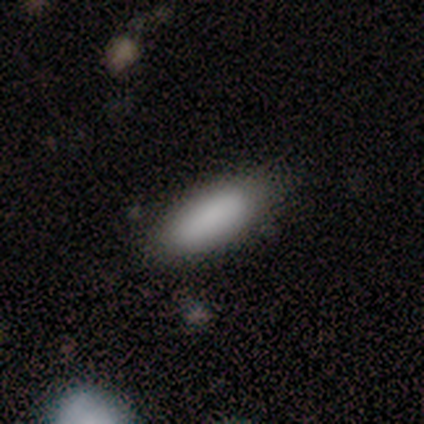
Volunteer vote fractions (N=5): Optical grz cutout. It shows a smooth galaxy with no disk features (100%) that is cigar-shaped (60%). Merging: none (100%).